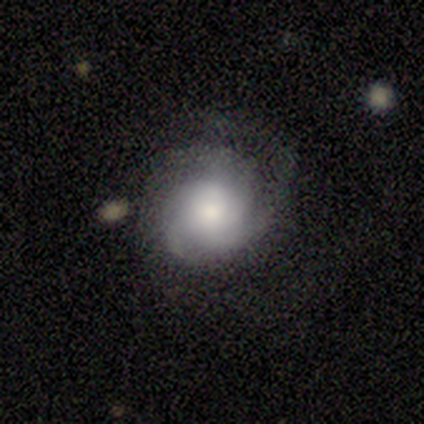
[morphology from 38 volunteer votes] This appears to be a featured or disk galaxy (66%) with no bar (100%), 3 (45%) medium (50%) spiral arms (88%) and a moderate central bulge (32%). Merging: none (57%).